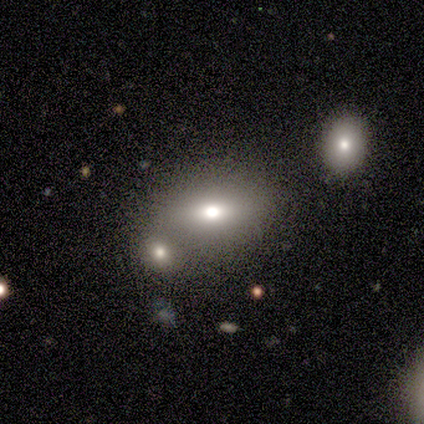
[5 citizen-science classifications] smooth-or-featured: star or artifact: 60% | smooth: 20% | featured or disk: 20%